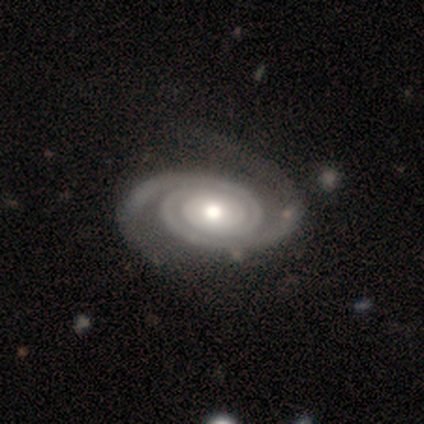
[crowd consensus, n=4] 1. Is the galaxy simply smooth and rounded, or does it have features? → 100% featured or disk, 0% smooth, 0% star or artifact.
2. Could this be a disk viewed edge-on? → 100% no, 0% yes.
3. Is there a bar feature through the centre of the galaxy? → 50% no, 25% strong, 25% weak.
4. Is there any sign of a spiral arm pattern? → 100% yes, 0% no.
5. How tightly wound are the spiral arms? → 100% tight, 0% medium, 0% loose.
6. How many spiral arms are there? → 100% 2, 0% 1, 0% 3, 0% 4, 0% more than 4, 0% can't tell.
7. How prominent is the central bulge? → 75% moderate, 25% large, 0% dominant, 0% small, 0% none.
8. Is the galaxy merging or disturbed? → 75% none, 25% minor disturbance, 0% major disturbance, 0% merger.